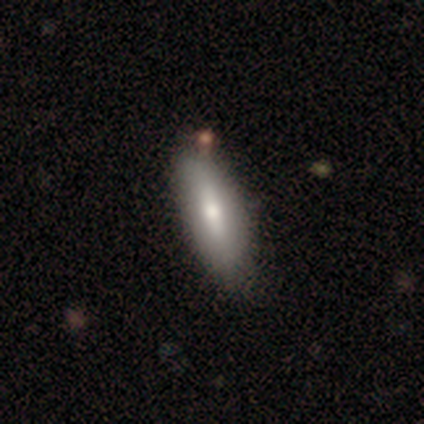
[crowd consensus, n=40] smooth_or_featured: smooth (p=0.78) [alt: featured or disk p=0.23]
how_rounded: in between (p=0.65) [alt: cigar-shaped p=0.35]
merging: none (p=0.65) [alt: major disturbance p=0.05]